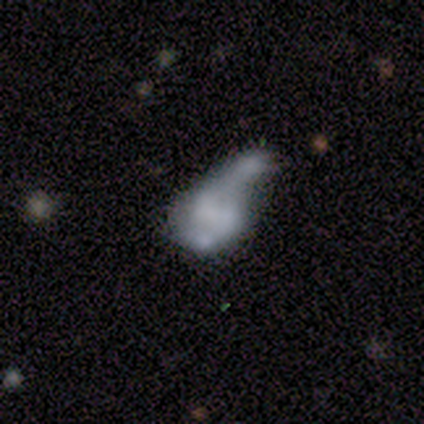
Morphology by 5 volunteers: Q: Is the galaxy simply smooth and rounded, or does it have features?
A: featured or disk — 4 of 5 (80%).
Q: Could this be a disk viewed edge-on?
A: no — 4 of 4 (100%).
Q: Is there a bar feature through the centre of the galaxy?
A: weak — 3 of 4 (75%).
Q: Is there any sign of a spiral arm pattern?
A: yes — 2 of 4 (50%, tied with no).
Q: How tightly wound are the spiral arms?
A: loose — 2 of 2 (100%).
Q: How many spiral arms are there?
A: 1 — 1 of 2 (50%, tied with 2).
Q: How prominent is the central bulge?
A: none — 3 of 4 (75%).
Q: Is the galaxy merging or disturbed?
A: merger — 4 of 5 (80%).